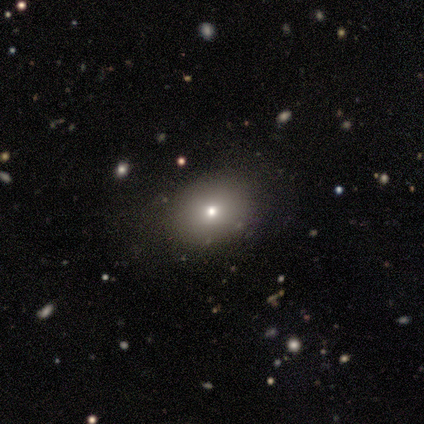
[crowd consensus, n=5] Smooth or featured? smooth (60%)
How rounded? in between (100%)
Merging? none (75%)